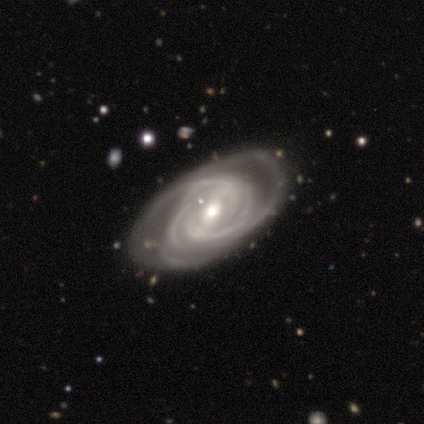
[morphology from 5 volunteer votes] Overall: featured or disk (100%). Edge-on disk: no (100%). Bar: weak (60%; strong 40%). Spiral arms: yes (100%). Spiral arm count: more than 4 (40%; 2 20%). Spiral winding: tight (60%; medium 20%). Bulge size: moderate (60%; large 20%). Merging: none (60%; minor disturbance 20%).